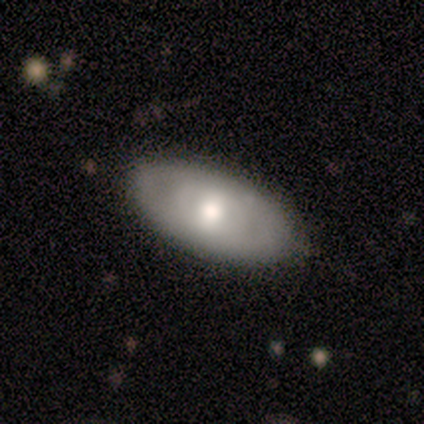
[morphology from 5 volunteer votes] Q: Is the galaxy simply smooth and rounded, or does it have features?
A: smooth — 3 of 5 (60%).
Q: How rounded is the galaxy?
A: in between — 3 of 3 (100%).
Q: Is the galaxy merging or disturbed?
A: none — 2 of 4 (50%).